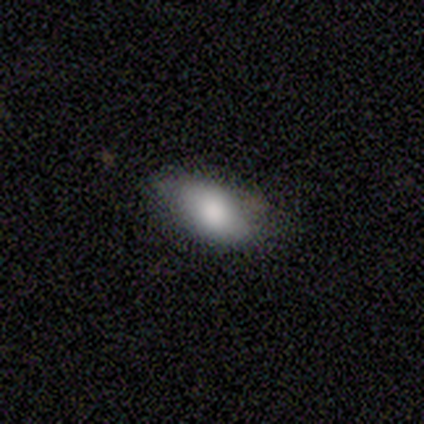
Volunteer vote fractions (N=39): Smooth or featured: smooth — 87% (featured or disk — 10%)
How rounded: in between — 94% (cigar-shaped — 6%)
Merging: none — 45% (minor disturbance — 16%)